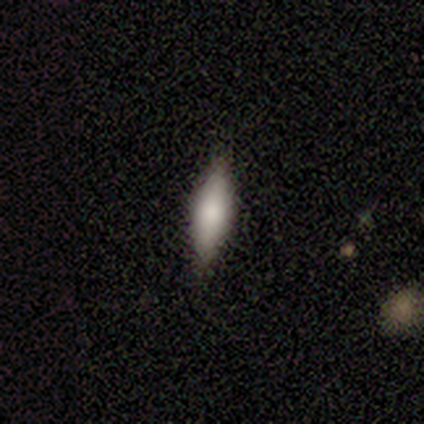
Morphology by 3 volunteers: This is likely a smooth galaxy (67%). How rounded: clearly cigar-shaped (100%). Merging: clearly none (100%).